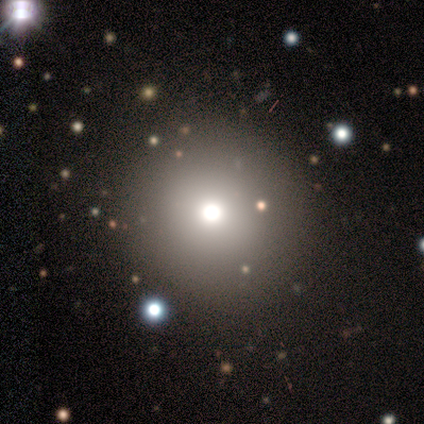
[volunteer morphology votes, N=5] Smooth or featured? 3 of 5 (60%) said smooth. How rounded? 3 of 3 (100%) said round. Merging? 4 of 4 (100%) said none.